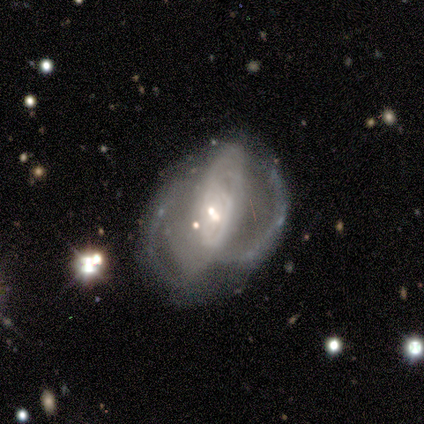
smooth_or_featured: featured or disk (p=0.80) [alt: star or artifact p=0.20]
disk_edge_on: no (p=1.00)
bar: no (p=0.75) [alt: strong p=0.25]
has_spiral_arms: yes (p=0.75) [alt: no p=0.25]
spiral_winding: loose (p=0.67) [alt: tight p=0.33]
spiral_arm_count: can't tell (p=0.67) [alt: 3 p=0.33]
bulge_size: moderate (p=0.50) [alt: large p=0.25]
merging: major disturbance (p=0.50) [tied with: merger p=0.50]